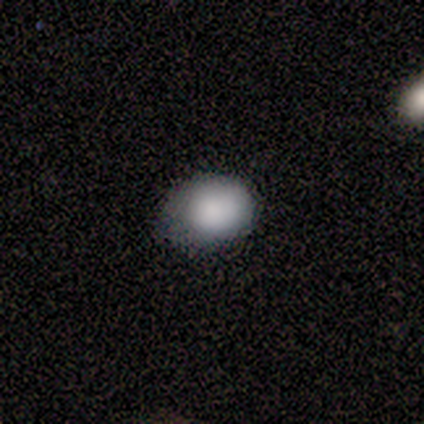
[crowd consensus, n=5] Smooth or featured? 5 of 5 (100%) said smooth. How rounded? 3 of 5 (60%) said in between. Merging? 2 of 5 (40%, tied with minor disturbance) said none.